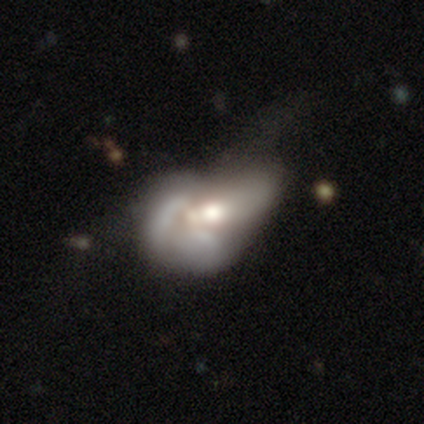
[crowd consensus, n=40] A featured or disk galaxy (70%) with no bar (70%), no spiral arms (78%) and a moderate central bulge (70%). Merging: merger (51%).